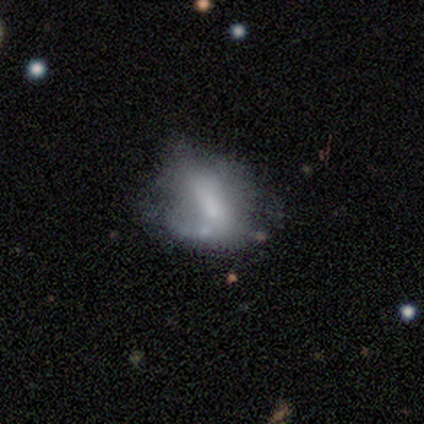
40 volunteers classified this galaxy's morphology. smooth_or_featured: featured or disk (p=0.47) [alt: smooth p=0.38]
disk_edge_on: no (p=1.00)
bar: no (p=0.68) [alt: strong p=0.16]
has_spiral_arms: no (p=0.89) [alt: yes p=0.11]
bulge_size: none (p=0.42) [alt: small p=0.26]
merging: minor disturbance (p=0.26) [tied with: major disturbance p=0.26, merger p=0.26]